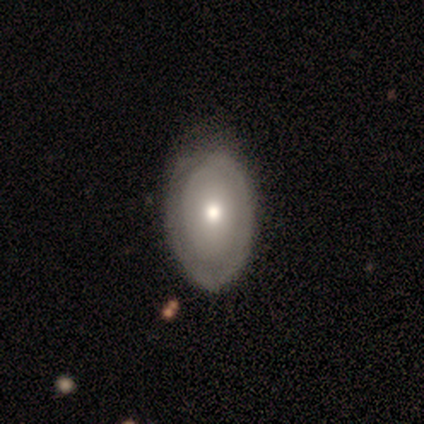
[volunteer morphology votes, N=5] Smooth or featured?
  - smooth: 60% *
  - featured or disk: 40%
  - star or artifact: 0%
How rounded?
  - in between: 100% *
  - round: 0%
  - cigar-shaped: 0%
Merging?
  - minor disturbance: 60% *
  - none: 40%
  - major disturbance: 0%
  - merger: 0%